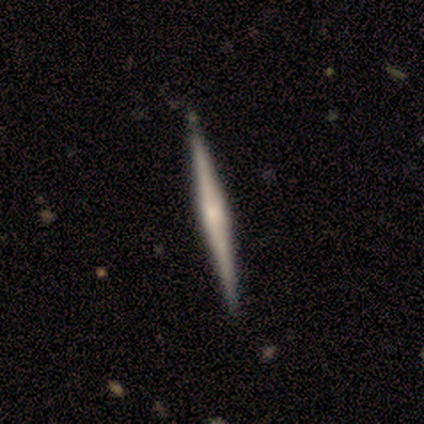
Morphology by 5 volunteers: Overall: featured or disk (80%). Edge-on disk: yes (100%). Edge-on bulge: rounded (50%; boxy 25%). Merging: none (60%; minor disturbance 40%).